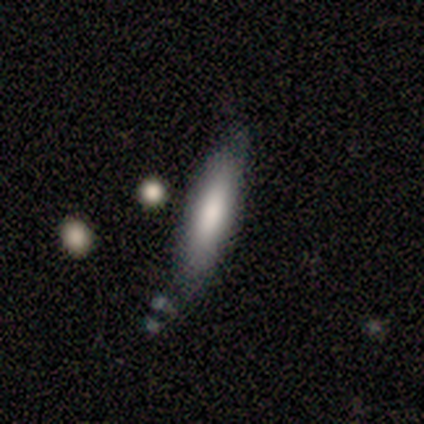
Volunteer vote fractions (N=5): Morphology: type=featured or disk (60%); edge-on=no (67%); bar=no (100%); spiral arms=yes (50%, tied with no); winding=tight (100%); arm count=can't tell (100%); bulge=large (50%, tied with moderate); merging=none (60%).